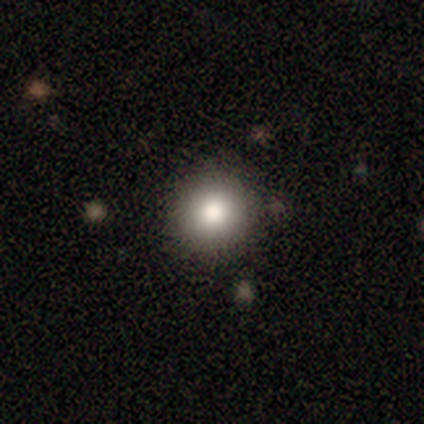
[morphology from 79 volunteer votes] type=smooth (82%); roundness=round (95%); merging=none (55%).